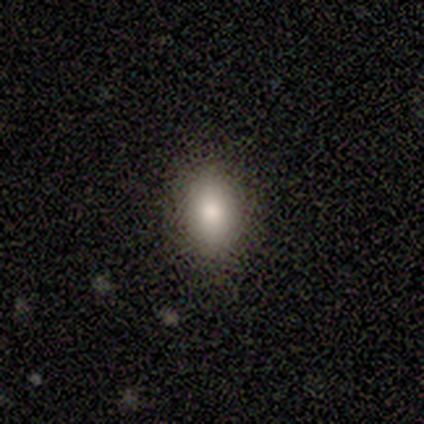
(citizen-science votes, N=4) A smooth galaxy with no disk features (100%) that is in between round and cigar-shaped (75%). Merging: none (100%).